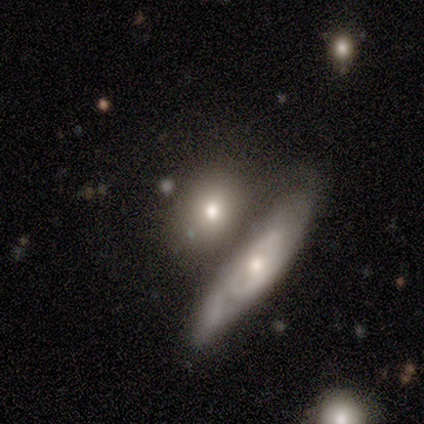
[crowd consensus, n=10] This is likely a smooth galaxy (70%). How rounded: possibly round (57%). Merging: marginally none (40%, tied with merger).